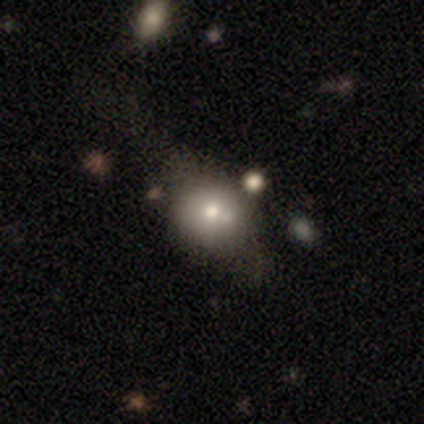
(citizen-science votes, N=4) Smooth or featured? smooth (50%, tied with featured or disk)
How rounded? round (50%, tied with in between)
Merging? none (75%)